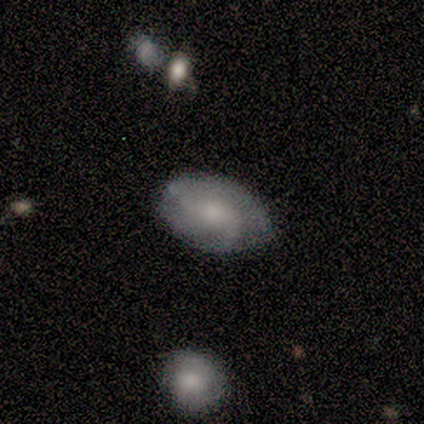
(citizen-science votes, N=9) This is possibly a smooth galaxy (56%). How rounded: clearly in between (100%). Merging: likely none (67%).